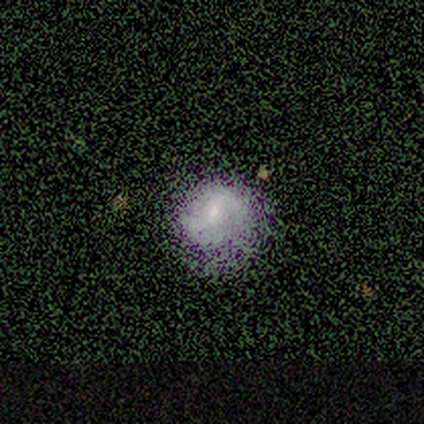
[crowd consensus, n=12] smooth-or-featured: smooth: 58% | featured or disk: 33% | star or artifact: 8%
  how-rounded: round: 71% | in between: 29% | cigar-shaped: 0%
  merging: none: 73% | minor disturbance: 27% | major disturbance: 0% | merger: 0%